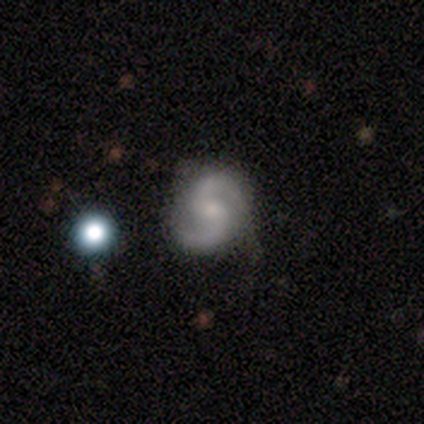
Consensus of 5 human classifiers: featured or disk 80%, smooth 20%, star or artifact 0%. Down the decision tree: edge-on disk — no (100%); bar — weak (50%, tied with no); spiral arms — yes (100%); spiral arm count — 2 (100%); spiral winding — medium (100%); bulge size — small (100%); merging — none (100%).